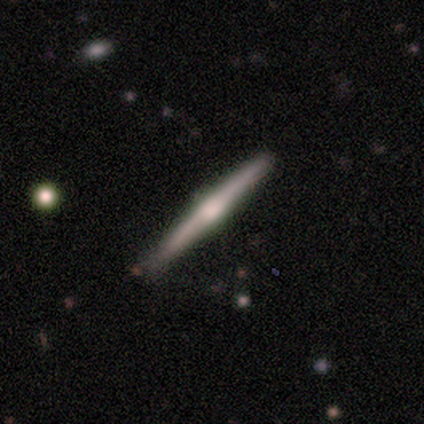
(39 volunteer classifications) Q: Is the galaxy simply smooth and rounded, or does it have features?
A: featured or disk — 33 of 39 (85%).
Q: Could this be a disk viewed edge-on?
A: yes — 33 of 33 (100%).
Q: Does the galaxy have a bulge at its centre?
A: rounded — 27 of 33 (82%).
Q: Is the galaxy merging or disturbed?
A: none — 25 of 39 (64%).